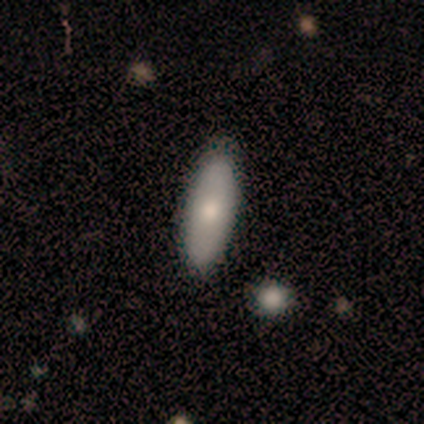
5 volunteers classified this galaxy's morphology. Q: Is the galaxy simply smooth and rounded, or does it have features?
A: smooth — 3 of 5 (60%).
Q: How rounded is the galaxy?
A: in between — 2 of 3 (67%).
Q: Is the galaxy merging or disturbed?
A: none — 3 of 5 (60%).